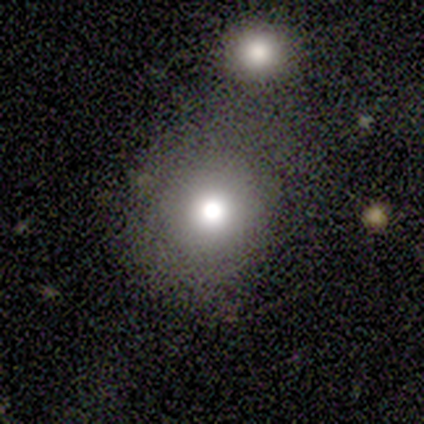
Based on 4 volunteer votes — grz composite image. It shows a smooth galaxy with no disk features (100%) that is round (100%). Merging: none (75%).